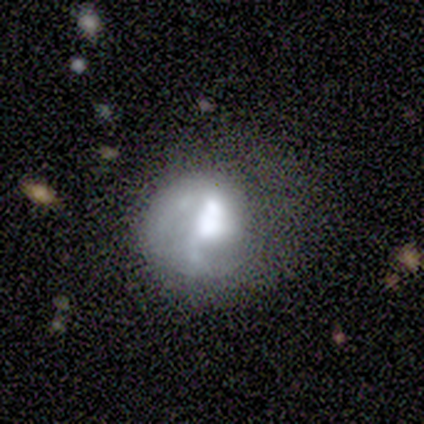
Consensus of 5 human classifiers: This appears to be a smooth galaxy with no disk features (60%) that is round (100%). Merging: none (60%).